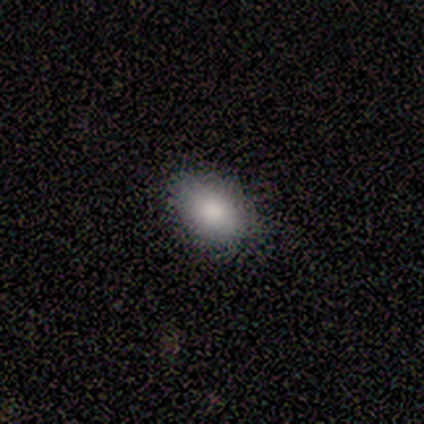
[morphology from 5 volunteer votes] Smooth or featured? 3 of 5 (60%) said smooth. How rounded? 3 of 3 (100%) said in between. Merging? 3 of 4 (75%) said none.